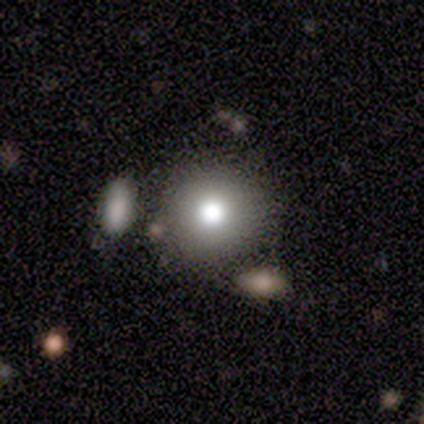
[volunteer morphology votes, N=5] A smooth galaxy with no disk features (60%) that is round (100%). Merging: none (80%).